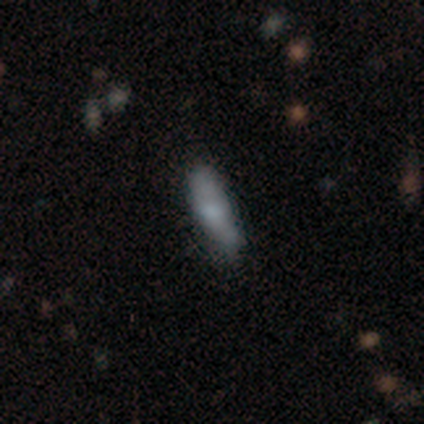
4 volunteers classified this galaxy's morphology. type=smooth (50%, tied with featured or disk); roundness=in between (50%, tied with cigar-shaped); merging=none (50%, tied with minor disturbance).